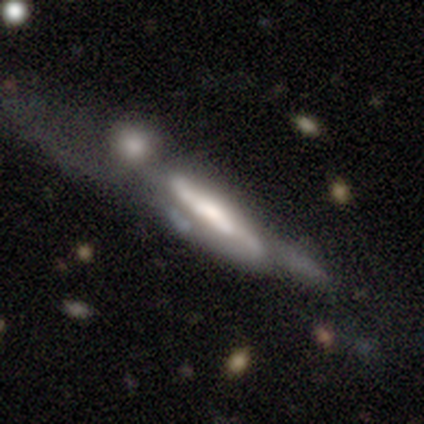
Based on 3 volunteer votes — smooth-or-featured: featured or disk: 67% | smooth: 33% | star or artifact: 0%
  disk-edge-on: yes: 50% (tied) | no: 50% (tied)
    edge-on-bulge: rounded: 100% | boxy: 0% | none: 0%
  merging: merger: 67% | minor disturbance: 33% | none: 0% | major disturbance: 0%